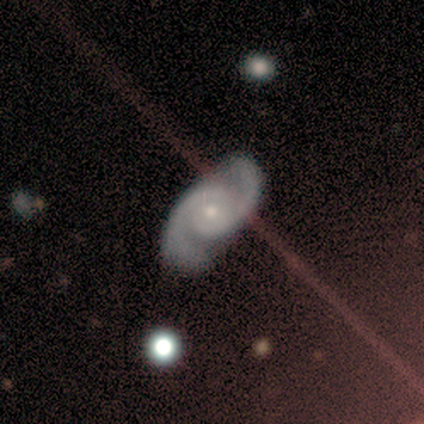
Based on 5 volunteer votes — Q: Smooth or featured?
A: featured or disk (80%); runner-up: star or artifact (20%)
Q: Edge-on disk?
A: no (100%)
Q: Bar?
A: no (100%)
Q: Spiral arms?
A: yes (100%)
Q: Spiral winding?
A: medium (50%); runner-up: tight (25%)
Q: Spiral arm count?
A: 2 (100%)
Q: Bulge size?
A: moderate (50%); tied with: small (50%)
Q: Merging?
A: none (100%)